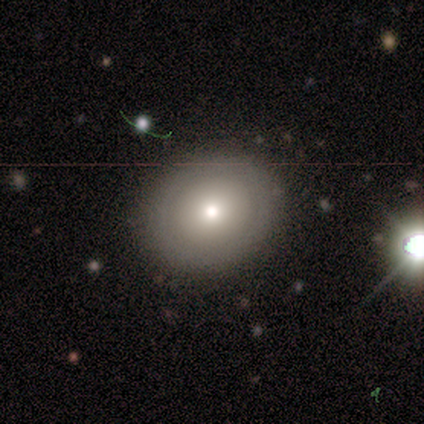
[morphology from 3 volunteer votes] Smooth or featured? smooth (67%)
How rounded? round (50%, tied with in between)
Merging? none (100%)